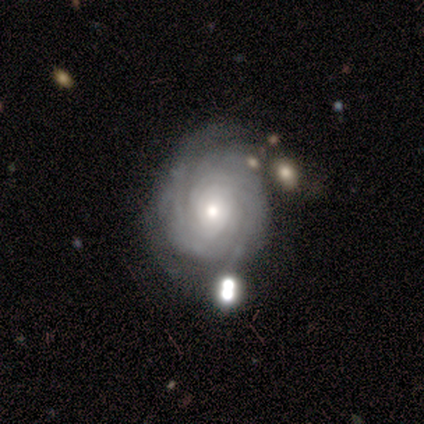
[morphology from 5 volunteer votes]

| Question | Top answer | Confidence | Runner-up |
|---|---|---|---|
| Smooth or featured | featured or disk | 100% | — |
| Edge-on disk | no | 100% | — |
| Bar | no | 60% | strong (20%) |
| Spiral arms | yes | 80% | no (20%) |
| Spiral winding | tight | 75% | medium (25%) |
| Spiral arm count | can't tell | 75% | 2 (25%) |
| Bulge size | moderate | 80% | small (20%) |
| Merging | none | 60% | minor disturbance (20%) |